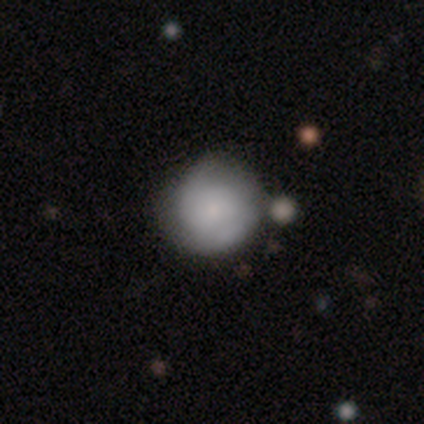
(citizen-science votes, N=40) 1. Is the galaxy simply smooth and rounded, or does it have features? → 70% smooth, 30% featured or disk, 0% star or artifact.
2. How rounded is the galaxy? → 93% round, 7% in between, 0% cigar-shaped.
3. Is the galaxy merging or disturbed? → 50% none, 10% merger, 5% minor disturbance, 2% major disturbance.